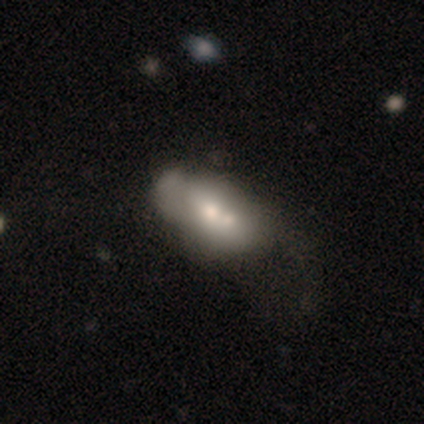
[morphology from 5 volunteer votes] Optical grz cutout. It shows a smooth galaxy with no disk features (60%) that is in between round and cigar-shaped (100%). Merging: merger (60%).